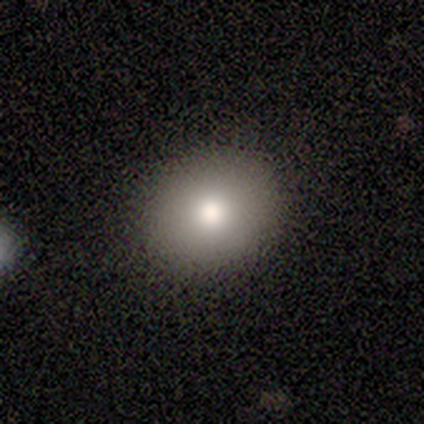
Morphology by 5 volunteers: This appears to be a smooth galaxy with no disk features (100%) that is round (80%). Merging: none (100%).